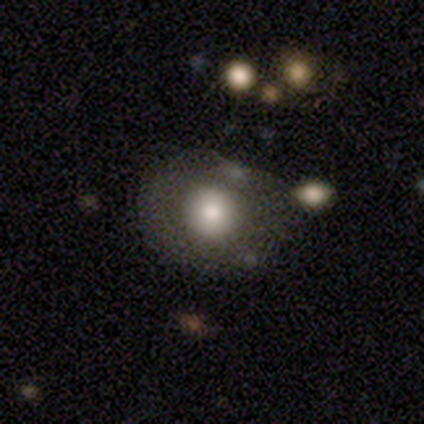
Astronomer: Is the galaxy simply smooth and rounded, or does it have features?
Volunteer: smooth — 57% (runner-up: featured or disk, 35%).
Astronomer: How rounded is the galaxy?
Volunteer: round — 86%.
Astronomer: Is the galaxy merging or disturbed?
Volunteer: none — 50%.